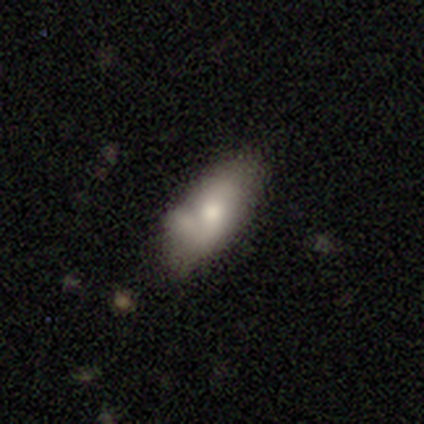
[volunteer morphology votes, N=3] This is likely a smooth galaxy (67%). How rounded: possibly in between (50%, tied with cigar-shaped). Merging: likely none (67%).